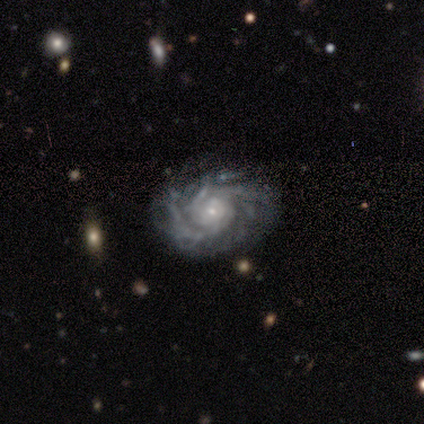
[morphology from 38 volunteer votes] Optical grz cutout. It shows a featured or disk galaxy (92%) with no bar (97%), 2 (32%) tight (74%) spiral arms (100%) and a small central bulge (82%). Merging: none (81%).